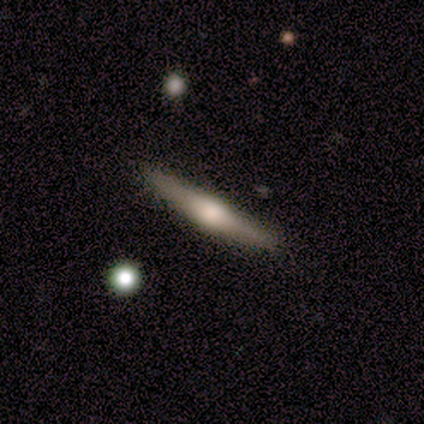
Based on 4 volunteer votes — This appears to be a featured or disk galaxy (50%) viewed edge-on (100%) with no central bulge (50%, tied with rounded). Merging: minor disturbance (67%).